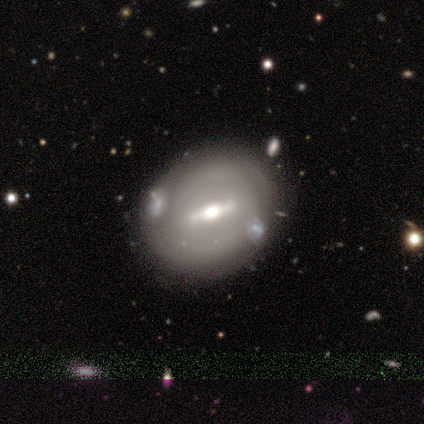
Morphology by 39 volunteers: featured or disk 72%, smooth 28%, star or artifact 0%. Down the decision tree: edge-on disk — no (64%); bar — strong (83%); spiral arms — no (56%); bulge size — moderate (78%); merging — none (62%).